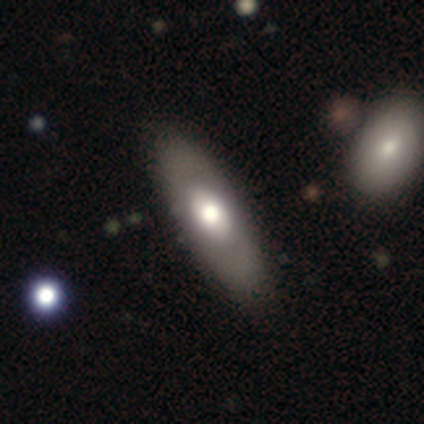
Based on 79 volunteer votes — Volunteers were most divided on "smooth or featured": smooth: 51%, featured or disk: 47%, star or artifact: 3%. Remaining: how rounded — in between (82%); merging — none (44%).